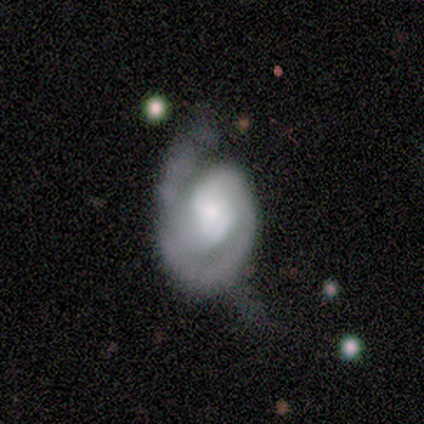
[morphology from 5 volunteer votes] This appears to be a smooth galaxy with no disk features (40%, tied with featured or disk) that is round (50%, tied with in between). Merging: none (50%).